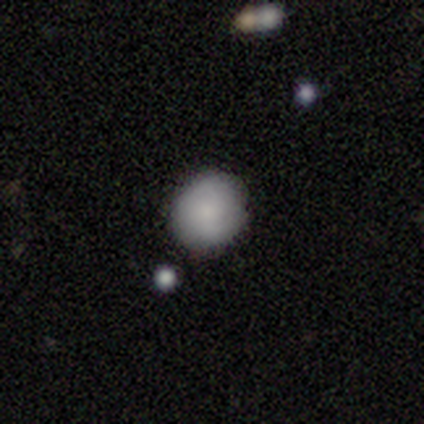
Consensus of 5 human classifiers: smooth_or_featured: smooth (p=0.80) [alt: star or artifact p=0.20]
how_rounded: round (p=1.00)
merging: none (p=1.00)